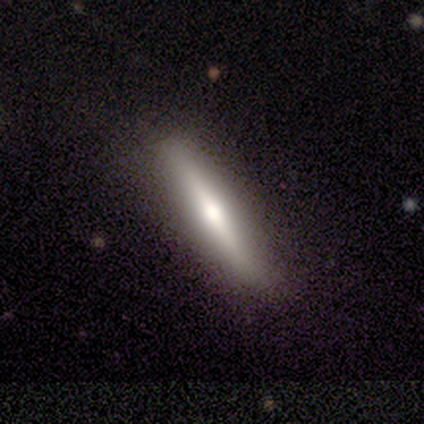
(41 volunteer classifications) A featured or disk galaxy (56%) viewed edge-on (96%) with a rounded central bulge (77%).

Vote fractions:
- Smooth or featured? featured or disk: 56% / smooth: 44% / star or artifact: 0%
- Edge-on disk? yes: 96% / no: 4%
- Edge-on bulge? rounded: 77% / none: 14% / boxy: 9%
- Merging? none: 90% / minor disturbance: 7% / major disturbance: 2% / merger: 0%